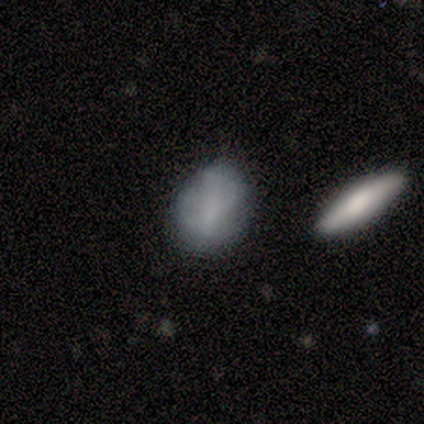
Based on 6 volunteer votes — Smooth or featured? smooth (83%)
How rounded? in between (100%)
Merging? none (67%)